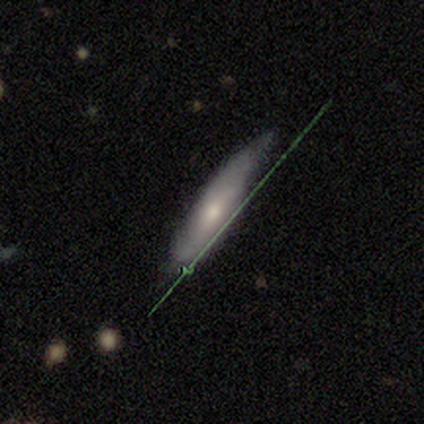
smooth 80%, featured or disk 20%, star or artifact 0%. Down the decision tree: how rounded — cigar-shaped (100%); merging — minor disturbance (60%).